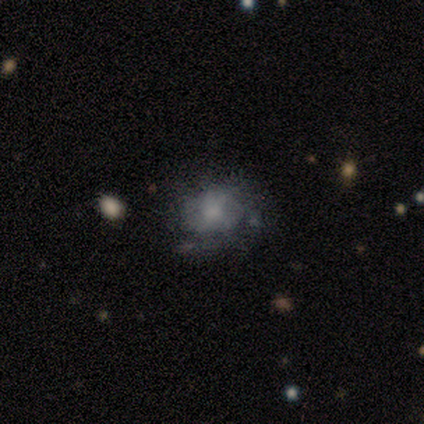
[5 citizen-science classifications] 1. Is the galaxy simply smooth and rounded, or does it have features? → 60% featured or disk, 20% smooth, 20% star or artifact.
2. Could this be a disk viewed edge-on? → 100% no, 0% yes.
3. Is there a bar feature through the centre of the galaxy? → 100% no, 0% strong, 0% weak.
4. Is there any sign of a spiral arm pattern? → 100% yes, 0% no.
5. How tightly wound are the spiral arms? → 67% loose, 33% tight, 0% medium.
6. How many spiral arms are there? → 33% 3 (tied), 33% more than 4 (tied), 33% can't tell (tied), 0% 1, 0% 2, 0% 4.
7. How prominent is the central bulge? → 33% dominant (tied), 33% small (tied), 33% none (tied), 0% large, 0% moderate.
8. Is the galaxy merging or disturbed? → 100% none, 0% minor disturbance, 0% major disturbance, 0% merger.